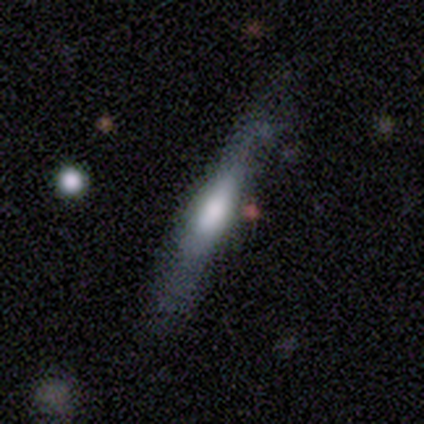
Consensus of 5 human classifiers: smooth_or_featured: smooth (p=0.80) [alt: featured or disk p=0.20]
how_rounded: cigar-shaped (p=1.00)
merging: none (p=0.60) [alt: minor disturbance p=0.20]